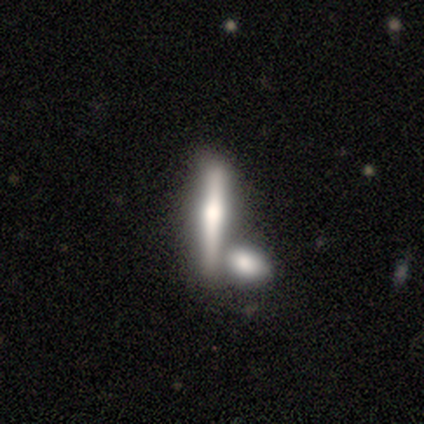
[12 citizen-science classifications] A featured or disk galaxy (67%) viewed edge-on (88%) with a rounded central bulge (86%).

Vote fractions:
- Smooth or featured? featured or disk: 67% / smooth: 33% / star or artifact: 0%
- Edge-on disk? yes: 88% / no: 12%
- Edge-on bulge? rounded: 86% / none: 14% / boxy: 0%
- Merging? merger: 58% / none: 42% / minor disturbance: 0% / major disturbance: 0%